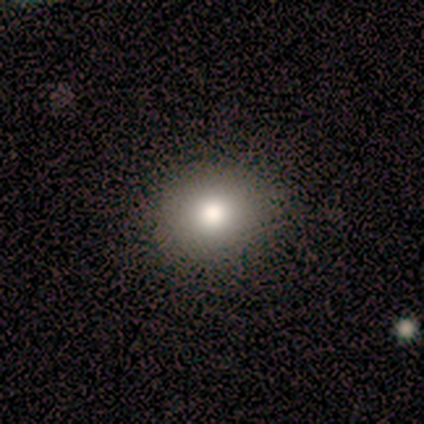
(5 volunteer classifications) A smooth galaxy with no disk features (100%) that is in between round and cigar-shaped (80%). Merging: none (80%).